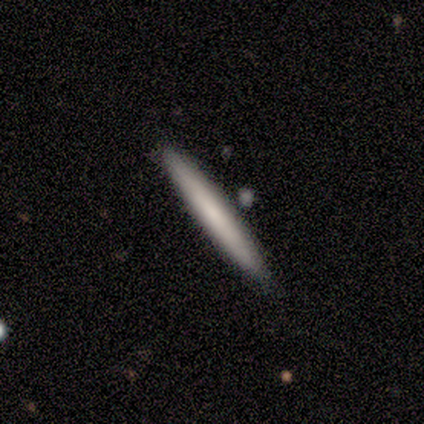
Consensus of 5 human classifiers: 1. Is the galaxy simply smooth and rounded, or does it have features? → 60% smooth, 40% featured or disk, 0% star or artifact.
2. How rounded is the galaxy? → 100% cigar-shaped, 0% round, 0% in between.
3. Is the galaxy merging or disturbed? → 80% none, 20% minor disturbance, 0% major disturbance, 0% merger.